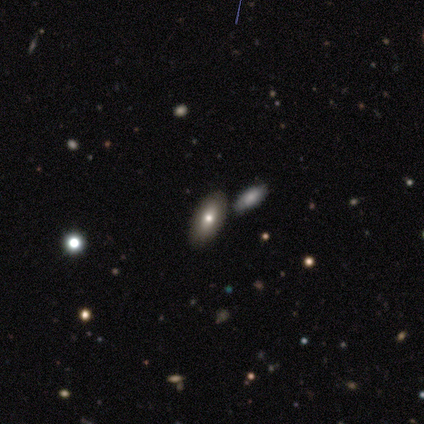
Morphology: type=smooth (100%); roundness=in between (75%); merging=none (50%).